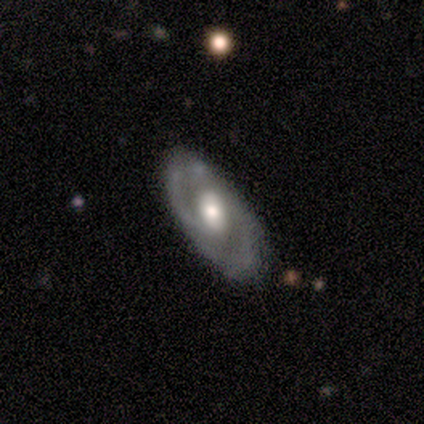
Overall: featured or disk (80%). Edge-on disk: no (100%). Bar: no (75%). Spiral arms: yes (50%, tied with no). Spiral arm count: 2 (100%). Spiral winding: loose (100%). Bulge size: moderate (100%). Merging: none (80%).